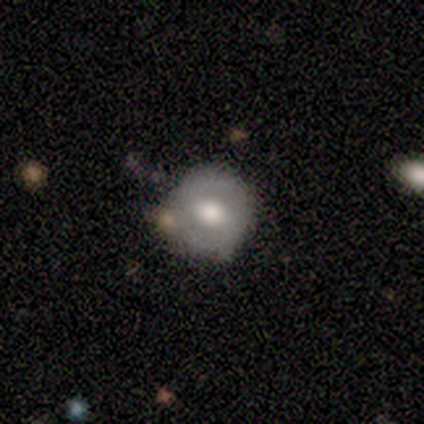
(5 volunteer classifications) featured or disk 80%, star or artifact 20%, smooth 0%. Down the decision tree: edge-on disk — no (100%); bar — no (50%); spiral arms — yes (100%); spiral arm count — 2 (75%); spiral winding — medium (75%); bulge size — moderate (75%); merging — none (75%).